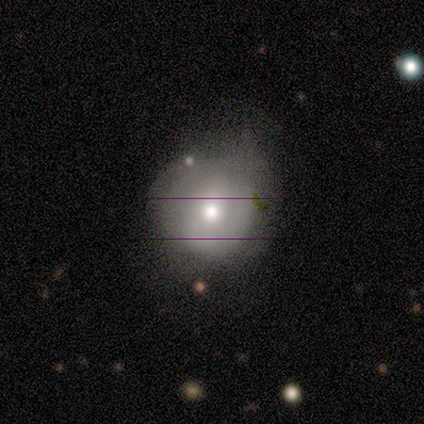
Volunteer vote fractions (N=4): This is clearly a smooth galaxy (100%). How rounded: clearly round (100%). Merging: likely none (75%).